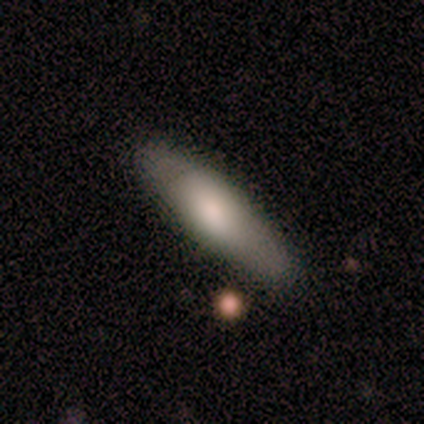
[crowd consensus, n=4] Morphology: type=smooth (100%); roundness=cigar-shaped (75%); merging=none (75%).